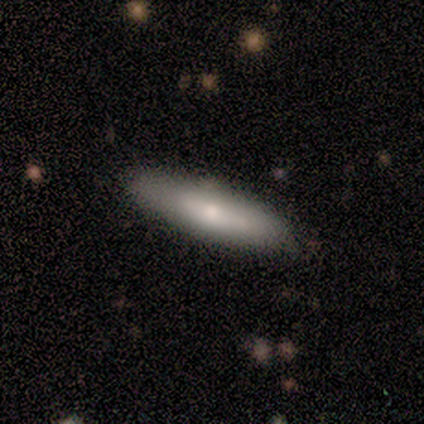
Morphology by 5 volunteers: Smooth or featured: smooth — 60% (featured or disk — 40%)
How rounded: in between — 67% (cigar-shaped — 33%)
Merging: none — 80% (minor disturbance — 20%)